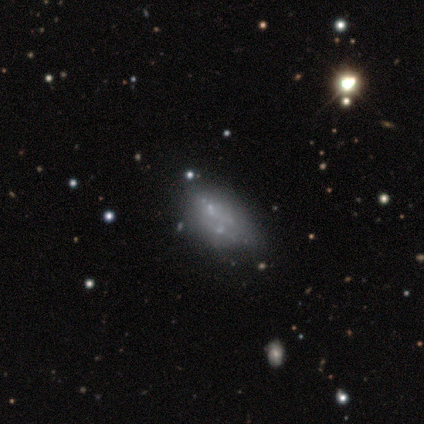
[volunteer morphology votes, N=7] smooth-or-featured: smooth: 71% | featured or disk: 29% | star or artifact: 0%
  how-rounded: in between: 100% | round: 0% | cigar-shaped: 0%
  merging: none: 57% | minor disturbance: 14% | major disturbance: 14% | merger: 14%